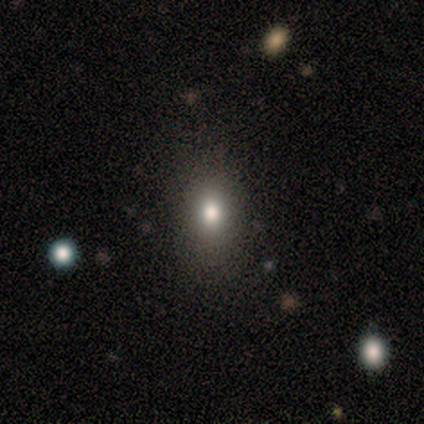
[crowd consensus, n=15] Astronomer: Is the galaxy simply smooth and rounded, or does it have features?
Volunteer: smooth — 80%.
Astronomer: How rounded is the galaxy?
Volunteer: in between — 75%.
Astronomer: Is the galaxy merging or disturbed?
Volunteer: none — 79%.